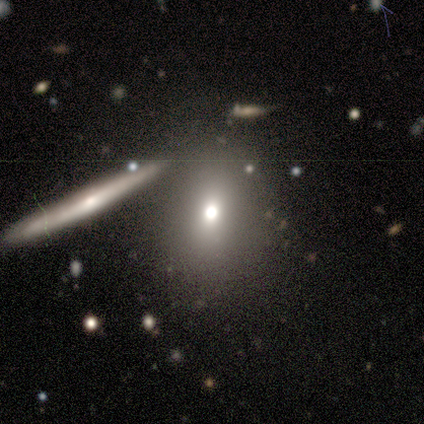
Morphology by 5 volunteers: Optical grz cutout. It shows a smooth galaxy with no disk features (60%) that is in between round and cigar-shaped (100%). Merging: none (100%).